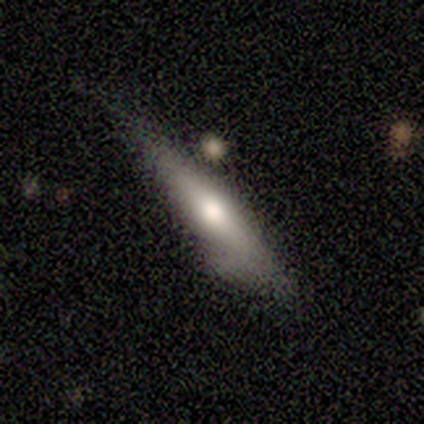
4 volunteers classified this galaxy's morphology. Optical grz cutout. It shows a smooth galaxy with no disk features (50%, tied with featured or disk) that is cigar-shaped (100%). Merging: none (50%, tied with minor disturbance).